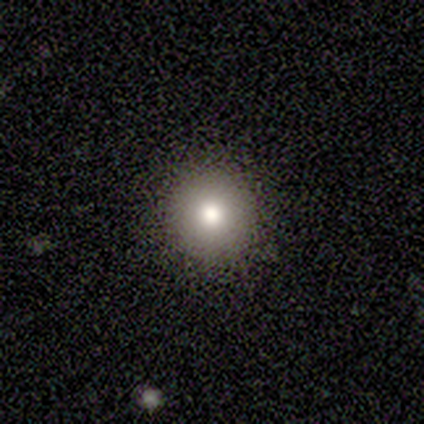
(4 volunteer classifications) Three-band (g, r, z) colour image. It shows a smooth galaxy with no disk features (100%) that is round (100%). Merging: none (100%).